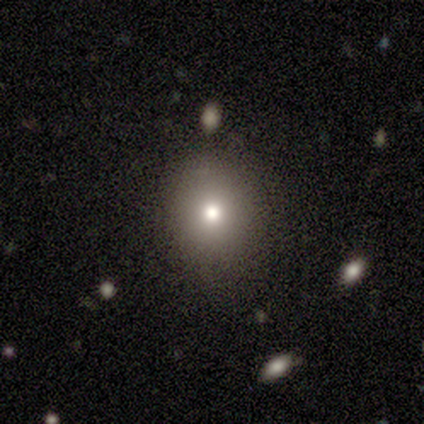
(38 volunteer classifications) This appears to be a smooth galaxy with no disk features (76%) that is round (72%). Merging: none (85%).